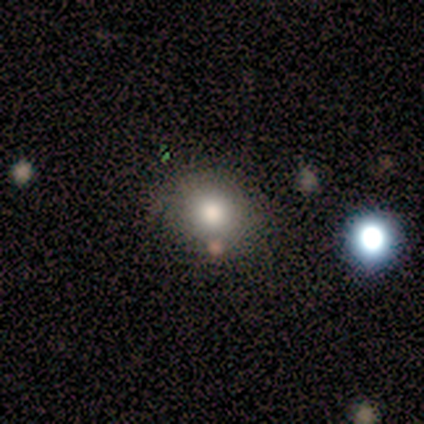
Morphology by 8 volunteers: A smooth galaxy with no disk features (100%) that is round (88%).

Vote fractions:
- Smooth or featured? smooth: 100% / featured or disk: 0% / star or artifact: 0%
- How rounded? round: 88% / in between: 12% / cigar-shaped: 0%
- Merging? none: 75% / minor disturbance: 12% / major disturbance: 12% / merger: 0%